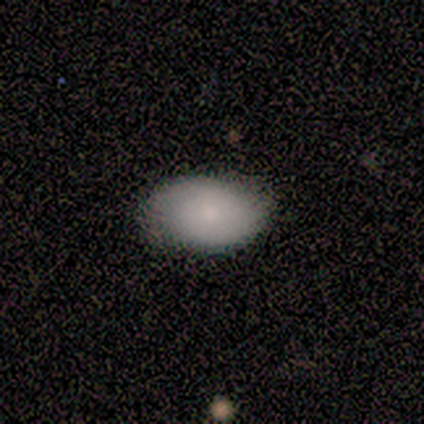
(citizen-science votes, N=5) This is clearly a smooth galaxy (80%). How rounded: likely in between (75%). Merging: clearly none (100%).